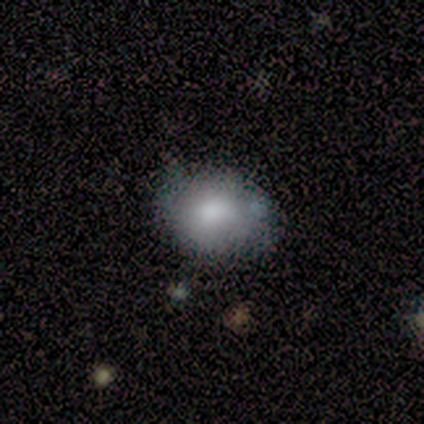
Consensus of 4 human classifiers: smooth-or-featured: smooth: 100% | featured or disk: 0% | star or artifact: 0%
  how-rounded: round: 75% | in between: 25% | cigar-shaped: 0%
  merging: none: 75% | minor disturbance: 25% | major disturbance: 0% | merger: 0%